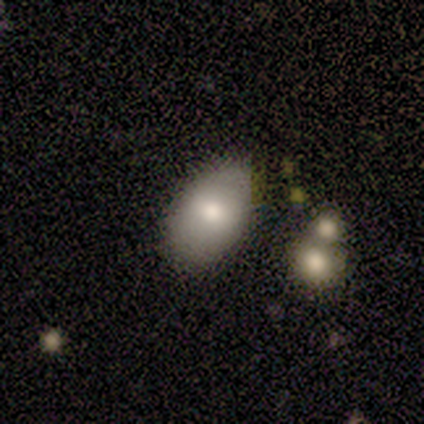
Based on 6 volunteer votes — Overall: smooth (83%). How rounded: in between (80%). Merging: none (67%).